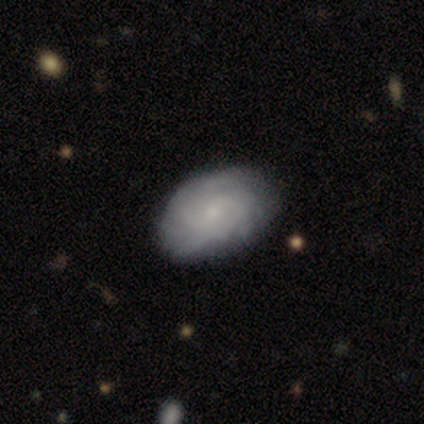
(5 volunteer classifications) This appears to be a featured or disk galaxy (100%) with no bar (60%), 2 (50%, tied with can't tell) tight (75%) spiral arms (80%) and a small central bulge (100%). Merging: none (80%).